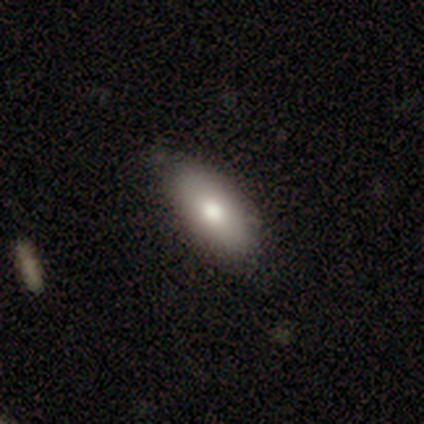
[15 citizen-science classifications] Q: Smooth or featured?
A: smooth (67%); runner-up: star or artifact (20%)
Q: How rounded?
A: in between (70%); runner-up: cigar-shaped (20%)
Q: Merging?
A: none (83%); runner-up: minor disturbance (8%)